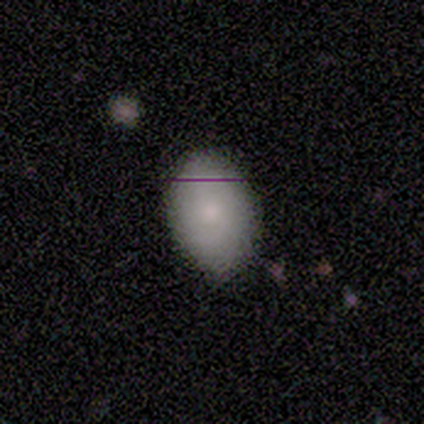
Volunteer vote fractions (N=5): Morphology: type=smooth (80%); roundness=in between (100%); merging=none (50%, tied with minor disturbance).